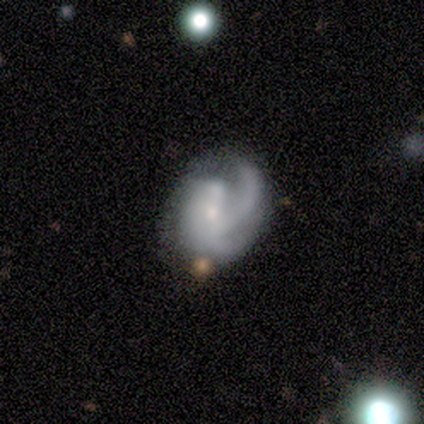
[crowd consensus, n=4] smooth_or_featured: featured or disk (p=1.00)
disk_edge_on: no (p=1.00)
bar: no (p=0.75) [alt: weak p=0.25]
has_spiral_arms: yes (p=1.00)
spiral_winding: medium (p=0.50) [alt: tight p=0.25]
spiral_arm_count: can't tell (p=0.75) [alt: 4 p=0.25]
bulge_size: small (p=0.75) [alt: moderate p=0.25]
merging: none (p=0.75) [alt: minor disturbance p=0.25]